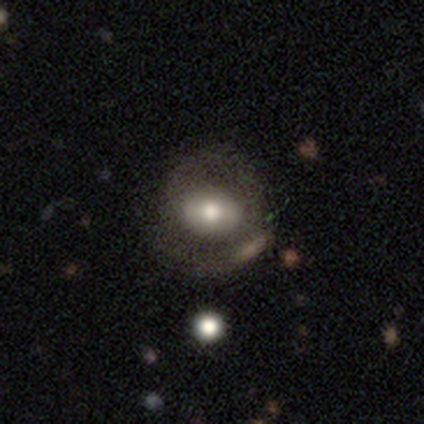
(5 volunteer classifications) This is marginally a smooth galaxy (40%, tied with featured or disk). How rounded: possibly round (50%, tied with in between). Merging: likely none (75%).